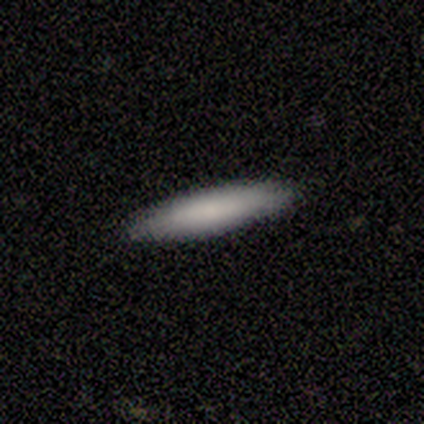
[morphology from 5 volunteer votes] This appears to be a smooth galaxy with no disk features (100%) that is cigar-shaped (80%). Merging: none (100%).